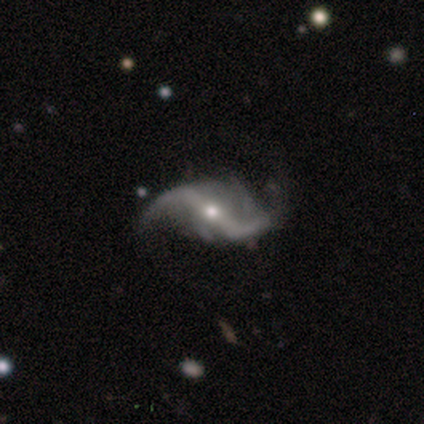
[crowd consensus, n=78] Morphology: type=featured or disk (94%); edge-on=no (96%); bar=strong (54%); spiral arms=yes (96%); winding=loose (94%); arm count=2 (100%); bulge=moderate (53%); merging=none (35%).